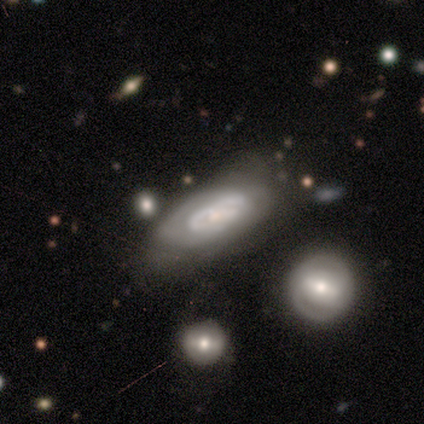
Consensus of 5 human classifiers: Volunteers were most divided on "bulge size": small: 60%, moderate: 40%, dominant: 0%, large: 0%, none: 0%. More confident: smooth or featured — featured or disk (100%); edge-on disk — no (100%); bar — weak (100%); spiral arm count — 2 (100%); spiral arms — yes (80%); spiral winding — medium (75%); merging — minor disturbance (60%).